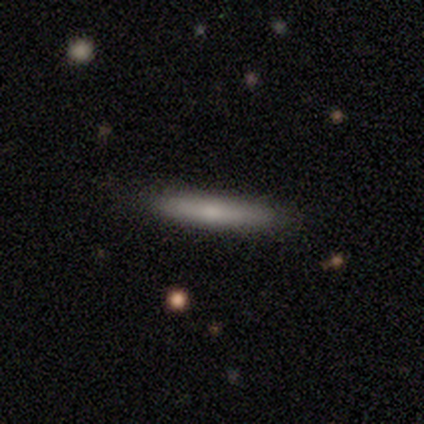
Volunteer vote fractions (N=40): Overall: smooth (60%; featured or disk 38%). How rounded: cigar-shaped (100%). Merging: none (74%).